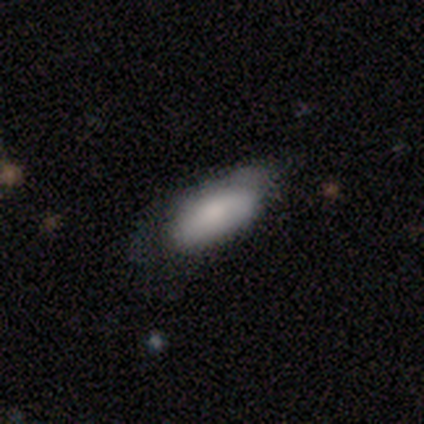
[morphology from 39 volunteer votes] Overall: smooth (69%). How rounded: in between (85%). Merging: none (51%; minor disturbance 43%).